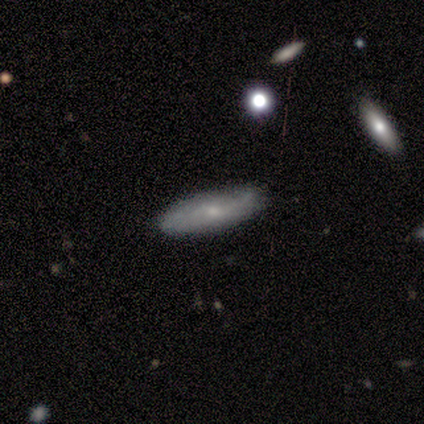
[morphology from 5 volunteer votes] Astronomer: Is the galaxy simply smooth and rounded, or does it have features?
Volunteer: featured or disk — 60% (runner-up: smooth, 40%).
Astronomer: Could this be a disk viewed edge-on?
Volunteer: no — 67%.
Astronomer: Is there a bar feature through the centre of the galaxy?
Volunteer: weak — 50%, tied with no at 50%.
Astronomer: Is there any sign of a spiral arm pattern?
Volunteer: yes — 100%.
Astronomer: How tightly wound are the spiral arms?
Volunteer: medium — 50%, tied with loose at 50%.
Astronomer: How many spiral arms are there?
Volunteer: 2 — 50%, tied with can't tell at 50%.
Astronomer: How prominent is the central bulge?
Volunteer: moderate — 50%, tied with small at 50%.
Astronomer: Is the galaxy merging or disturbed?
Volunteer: minor disturbance — 60% (runner-up: none, 40%).